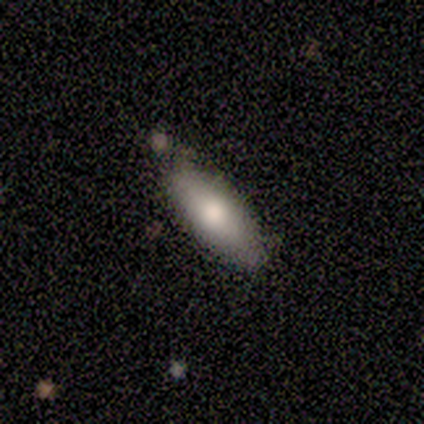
smooth 80%, featured or disk 20%, star or artifact 0%. Down the decision tree: how rounded — in between (75%); merging — none (80%).